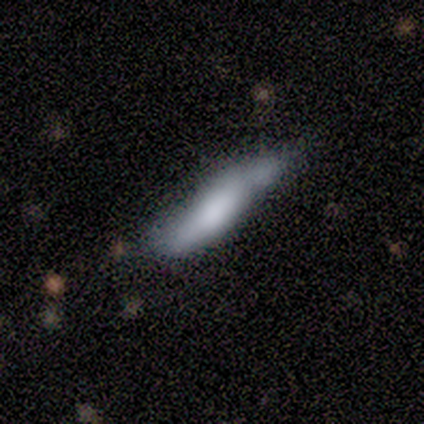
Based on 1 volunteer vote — Smooth or featured?
  - smooth: 100% *
  - featured or disk: 0%
  - star or artifact: 0%
How rounded?
  - cigar-shaped: 100% *
  - round: 0%
  - in between: 0%
Merging?
  - none: 100% *
  - minor disturbance: 0%
  - major disturbance: 0%
  - merger: 0%